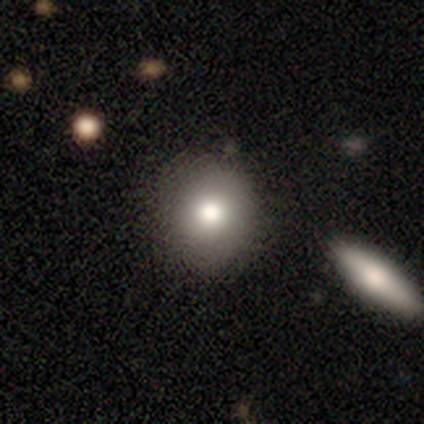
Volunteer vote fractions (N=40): smooth 80%, featured or disk 15%, star or artifact 5%. Down the decision tree: how rounded — round (75%); merging — none (92%).